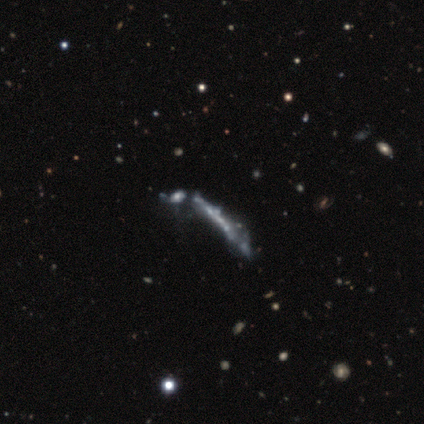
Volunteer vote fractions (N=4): This appears to be a featured or disk galaxy (75%) viewed edge-on (67%) with no central bulge (100%). Merging: merger (67%).